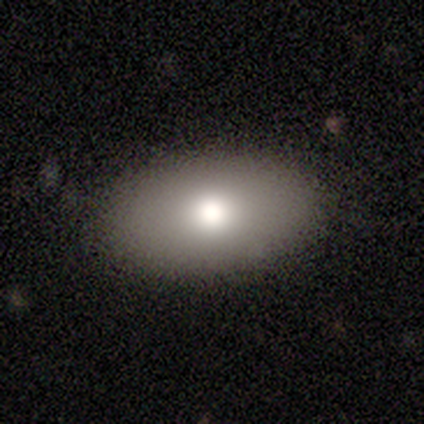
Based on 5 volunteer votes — smooth 80%, featured or disk 20%, star or artifact 0%. Down the decision tree: how rounded — in between (75%); merging — none (100%).